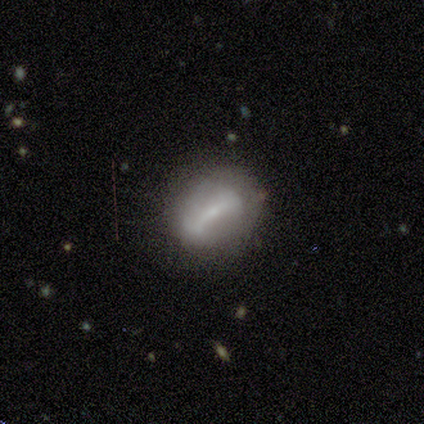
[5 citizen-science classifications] smooth-or-featured: featured or disk: 60% | smooth: 40% | star or artifact: 0%
  disk-edge-on: no: 67% | yes: 33%
    bar: strong: 100% | weak: 0% | no: 0%
    has-spiral-arms: yes: 100% | no: 0%
      spiral-winding: tight: 50% (tied) | medium: 50% (tied) | loose: 0%
      spiral-arm-count: 2: 100% | 1: 0% | 3: 0% | 4: 0% | more than 4: 0% | can't tell: 0%
    bulge-size: small: 100% | dominant: 0% | large: 0% | moderate: 0% | none: 0%
  merging: none: 80% | minor disturbance: 20% | major disturbance: 0% | merger: 0%